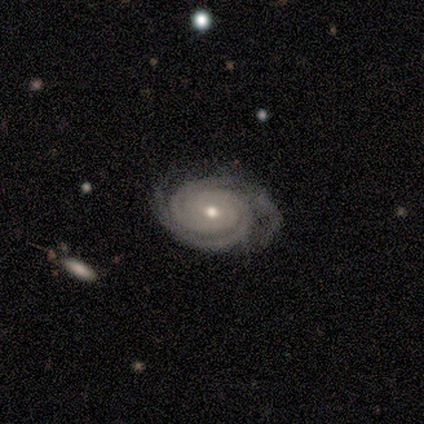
featured or disk 94%, star or artifact 3%, smooth 2%. Down the decision tree: edge-on disk — no (99%); bar — no (77%); spiral arms — yes (99%); spiral arm count — 2 (61%); spiral winding — tight (95%); bulge size — moderate (68%); merging — none (71%).